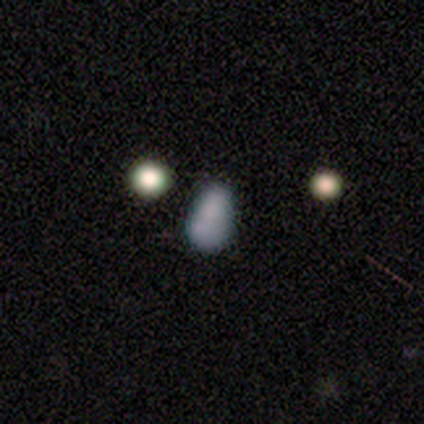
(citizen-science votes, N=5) Smooth or featured?
  - smooth: 80% *
  - featured or disk: 20%
  - star or artifact: 0%
How rounded?
  - in between: 100% *
  - round: 0%
  - cigar-shaped: 0%
Merging?
  - none: 60% *
  - minor disturbance: 20%
  - merger: 20%
  - major disturbance: 0%